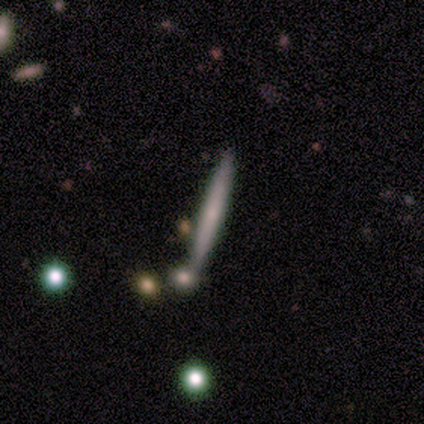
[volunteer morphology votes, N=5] A smooth galaxy with no disk features (80%) that is cigar-shaped (100%). Merging: none (80%).